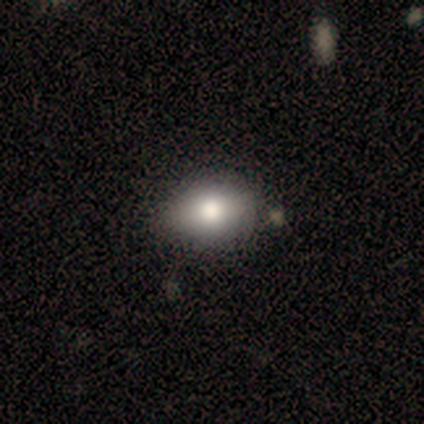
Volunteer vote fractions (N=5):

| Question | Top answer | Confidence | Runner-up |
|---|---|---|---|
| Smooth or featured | smooth | 80% | featured or disk (20%) |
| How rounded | round | 50% | tied: in between (50%) |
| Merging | none | 80% | major disturbance (20%) |